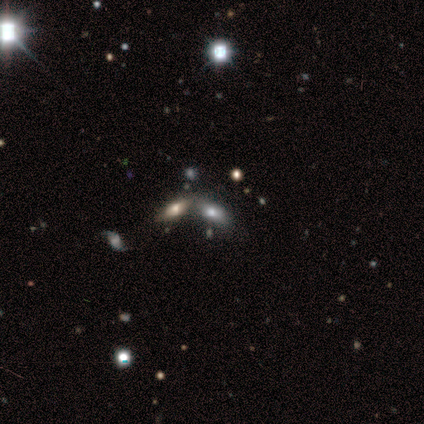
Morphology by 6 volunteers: A star or artifact, not a galaxy (50%).